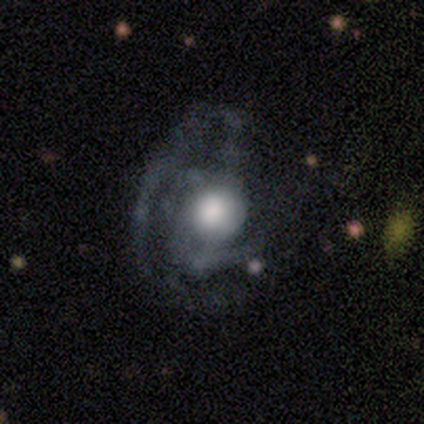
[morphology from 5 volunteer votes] type=featured or disk (60%); edge-on=no (100%); bar=no (100%); spiral arms=yes (67%); winding=medium (100%); arm count=2 (50%, tied with 4); bulge=large (67%); merging=major disturbance (80%).